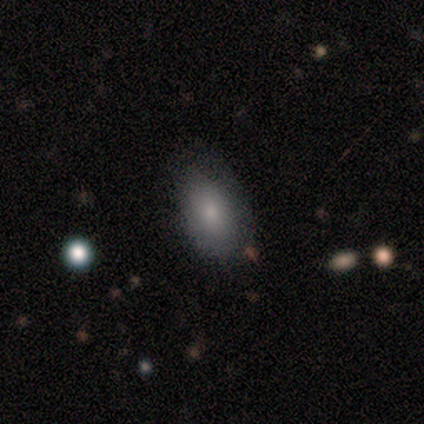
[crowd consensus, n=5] Overall: smooth (100%). How rounded: in between (100%). Merging: none (60%; minor disturbance 20%).